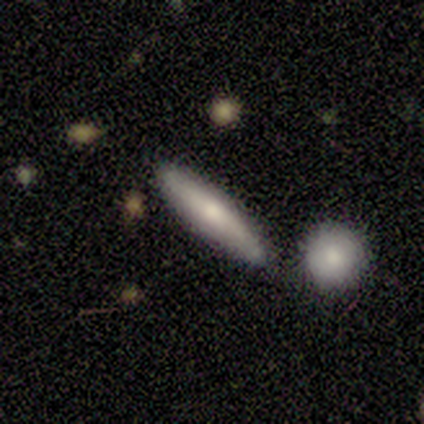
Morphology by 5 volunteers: smooth_or_featured: smooth (p=0.80) [alt: featured or disk p=0.20]
how_rounded: cigar-shaped (p=1.00)
merging: none (p=1.00)